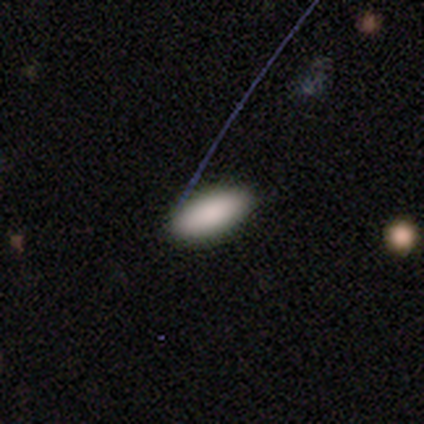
Smooth or featured? 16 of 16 (100%) said smooth. How rounded? 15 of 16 (94%) said in between. Merging? 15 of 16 (94%) said none.